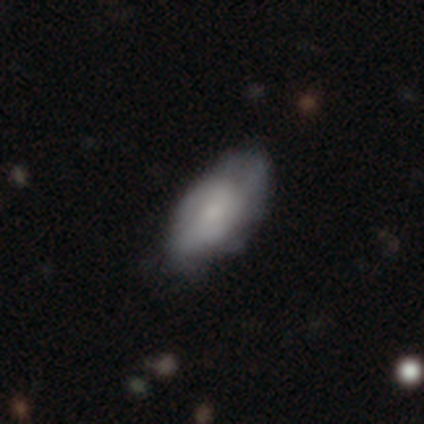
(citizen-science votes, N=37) Q: Smooth or featured?
A: smooth (51%); runner-up: featured or disk (41%)
Q: How rounded?
A: in between (100%)
Q: Merging?
A: none (68%); runner-up: minor disturbance (21%)